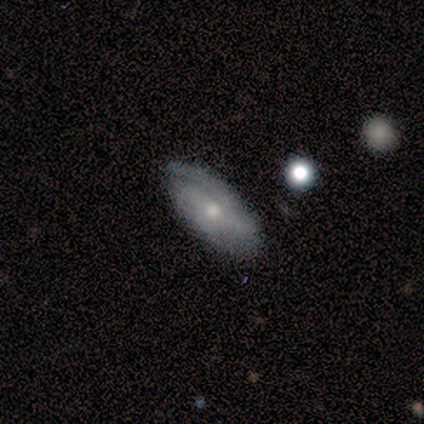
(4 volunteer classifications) smooth_or_featured: featured or disk (p=0.75) [alt: smooth p=0.25]
disk_edge_on: no (p=1.00)
bar: strong (p=0.67) [alt: no p=0.33]
has_spiral_arms: yes (p=1.00)
spiral_winding: tight (p=0.67) [alt: medium p=0.33]
spiral_arm_count: 2 (p=0.67) [alt: can't tell p=0.33]
bulge_size: moderate (p=1.00)
merging: none (p=0.75) [alt: minor disturbance p=0.25]